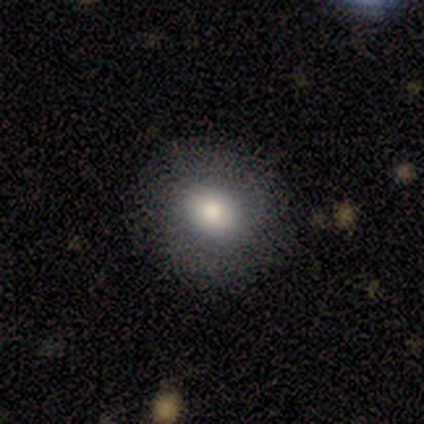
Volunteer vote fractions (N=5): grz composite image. It shows a smooth galaxy with no disk features (80%) that is round (50%, tied with in between). Merging: none (100%).